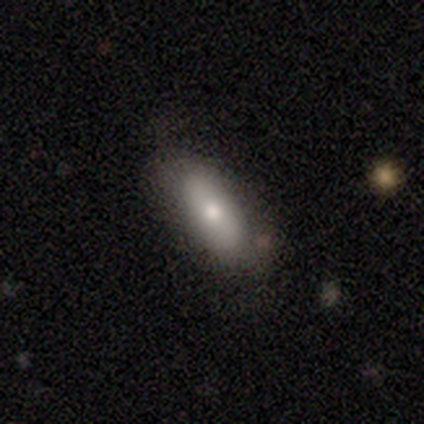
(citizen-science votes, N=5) Smooth or featured: smooth — 80% (star or artifact — 20%)
How rounded: in between — 75% (cigar-shaped — 25%)
Merging: none — 75% (minor disturbance — 25%)